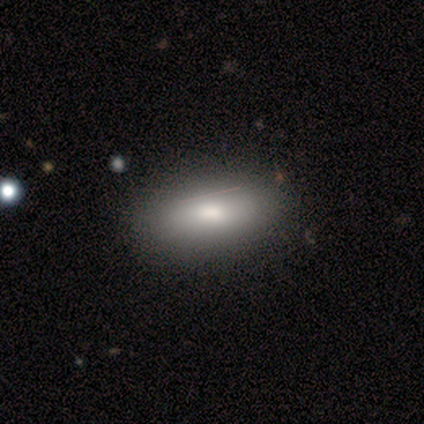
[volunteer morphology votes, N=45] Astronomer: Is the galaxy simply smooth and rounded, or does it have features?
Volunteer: smooth — 78%.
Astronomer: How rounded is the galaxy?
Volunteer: in between — 83%.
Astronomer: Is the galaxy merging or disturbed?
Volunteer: none — 54%.